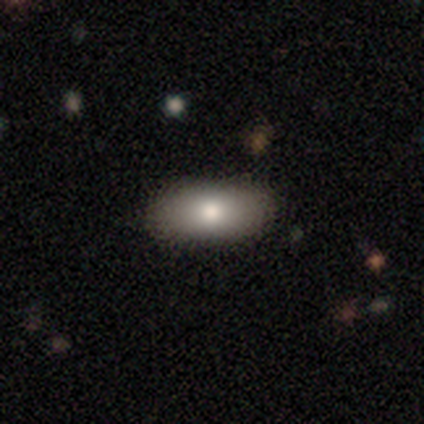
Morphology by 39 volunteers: A smooth galaxy with no disk features (79%) that is in between round and cigar-shaped (94%).

Vote fractions:
- Smooth or featured? smooth: 79% / featured or disk: 13% / star or artifact: 8%
- How rounded? in between: 94% / cigar-shaped: 6% / round: 0%
- Merging? none: 92% / minor disturbance: 8% / major disturbance: 0% / merger: 0%